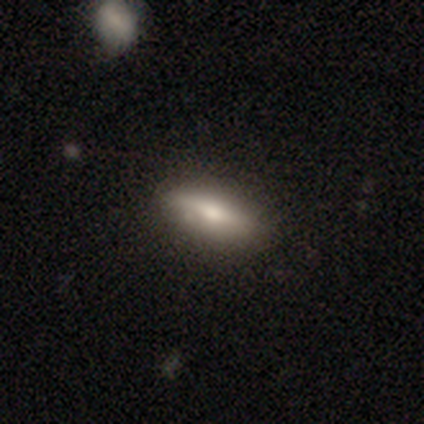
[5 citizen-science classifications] Q: Smooth or featured?
A: smooth (80%); runner-up: featured or disk (20%)
Q: How rounded?
A: in between (75%); runner-up: cigar-shaped (25%)
Q: Merging?
A: none (100%)